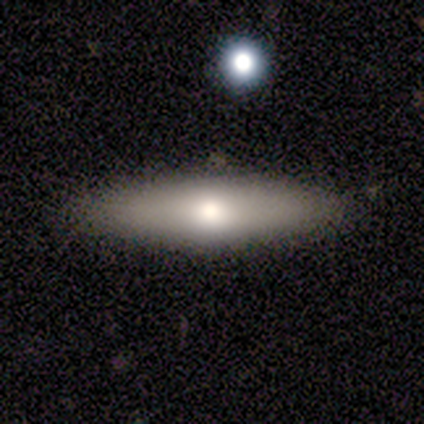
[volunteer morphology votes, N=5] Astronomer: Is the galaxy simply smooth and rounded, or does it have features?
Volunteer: smooth — 40%, tied with featured or disk at 40%.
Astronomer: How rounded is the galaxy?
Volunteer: in between — 50%, tied with cigar-shaped at 50%.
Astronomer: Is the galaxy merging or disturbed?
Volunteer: none — 100%.